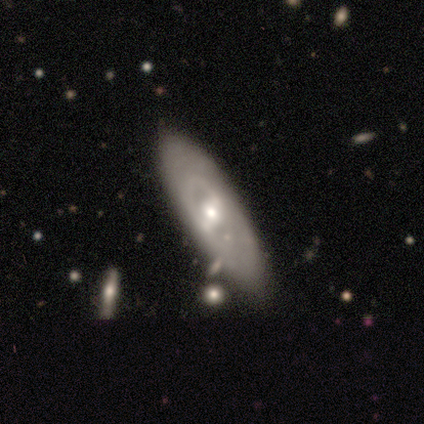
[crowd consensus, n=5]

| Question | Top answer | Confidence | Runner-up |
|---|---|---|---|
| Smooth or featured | featured or disk | 100% | — |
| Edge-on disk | no | 80% | yes (20%) |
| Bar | no | 50% | strong (25%) |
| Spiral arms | no | 100% | — |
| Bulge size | small | 75% | moderate (25%) |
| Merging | none | 100% | — |